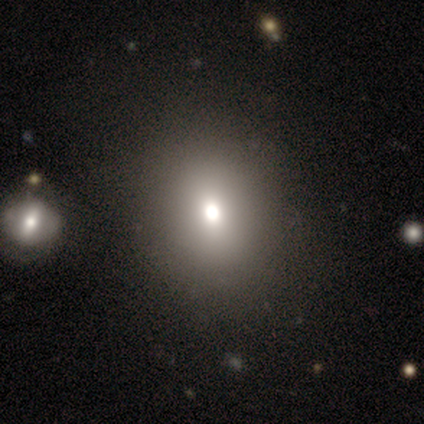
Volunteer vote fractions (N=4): A smooth galaxy with no disk features (75%) that is round (100%). Merging: none (100%).